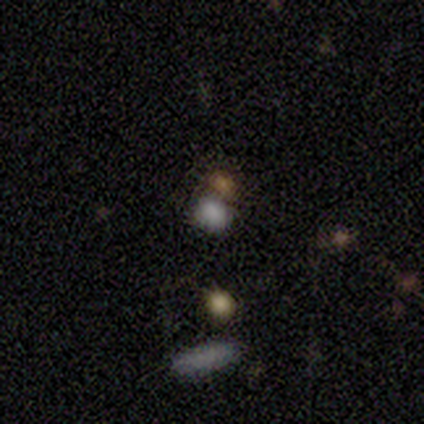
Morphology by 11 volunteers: type=smooth (82%); roundness=round (67%); merging=merger (56%).